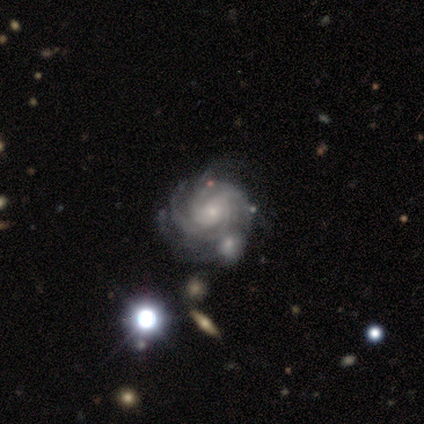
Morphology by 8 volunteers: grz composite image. It shows a featured or disk galaxy (100%) with no bar (75%), 3 (25%, tied with 4, more than 4 and can't tell) tight (75%) spiral arms (100%) and a small central bulge (75%). Merging: none (75%).